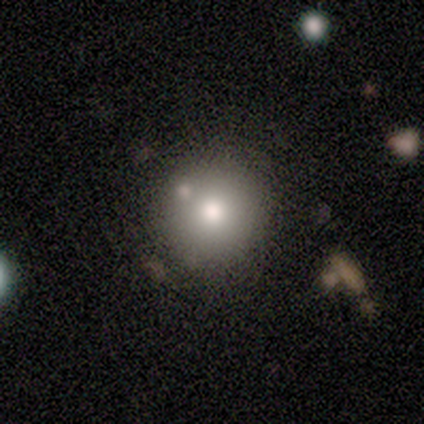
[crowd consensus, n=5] smooth 80%, featured or disk 20%, star or artifact 0%. Down the decision tree: how rounded — round (100%); merging — none (40%, tied with minor disturbance).